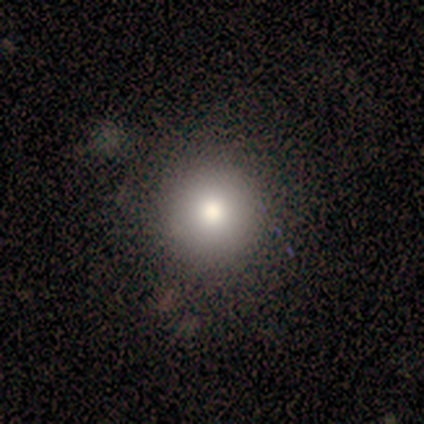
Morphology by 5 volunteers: This is marginally a smooth galaxy (40%, tied with star or artifact). How rounded: clearly round (100%). Merging: clearly none (100%).